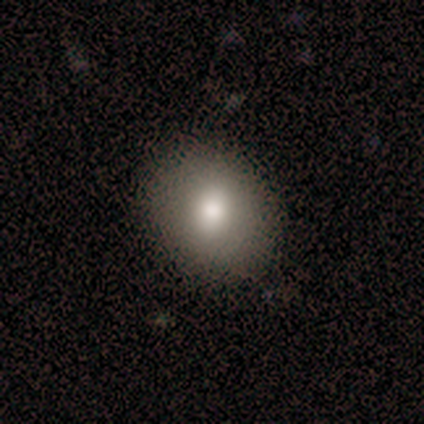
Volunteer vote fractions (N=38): Overall: smooth (79%). How rounded: round (57%; in between 40%). Merging: none (89%).